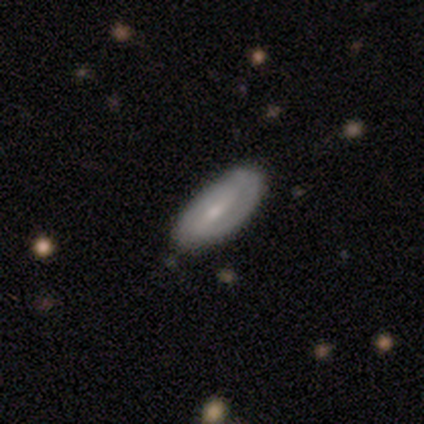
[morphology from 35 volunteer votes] Volunteers were most divided on "smooth or featured" (2-way tie): smooth: 46%, featured or disk: 46%, star or artifact: 9%. More confident: merging — none (84%); how rounded — in between (75%).